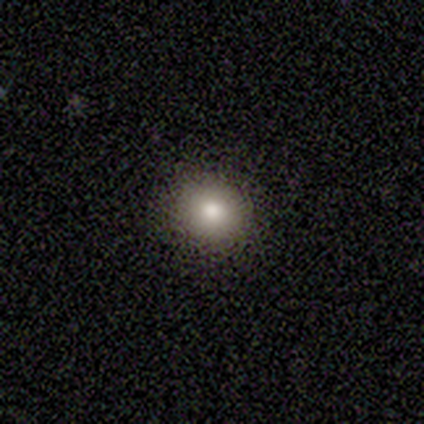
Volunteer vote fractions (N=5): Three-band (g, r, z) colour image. It shows a smooth galaxy with no disk features (100%) that is round (80%). Merging: none (80%).